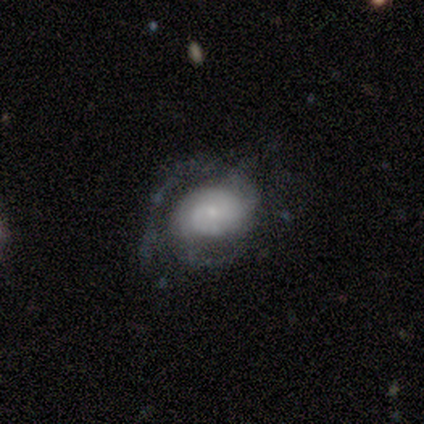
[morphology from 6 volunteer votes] type=featured or disk (83%); edge-on=no (100%); bar=no (100%); spiral arms=yes (60%); winding=medium (67%); arm count=1 (33%, tied with 2 and can't tell); bulge=large (40%, tied with small); merging=none (50%).